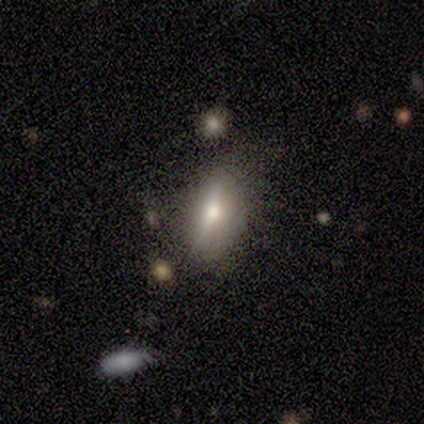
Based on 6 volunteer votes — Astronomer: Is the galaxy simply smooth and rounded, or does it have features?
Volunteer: featured or disk — 67%.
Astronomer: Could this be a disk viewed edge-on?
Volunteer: yes — 50%, tied with no at 50%.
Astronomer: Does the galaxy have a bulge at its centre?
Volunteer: rounded — 100%.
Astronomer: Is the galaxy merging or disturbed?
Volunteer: none — 67%.